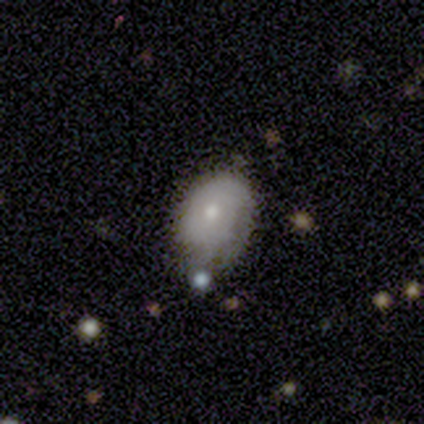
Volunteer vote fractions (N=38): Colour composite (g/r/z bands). It shows a smooth galaxy with no disk features (47%) that is in between round and cigar-shaped (89%). Merging: none (48%).